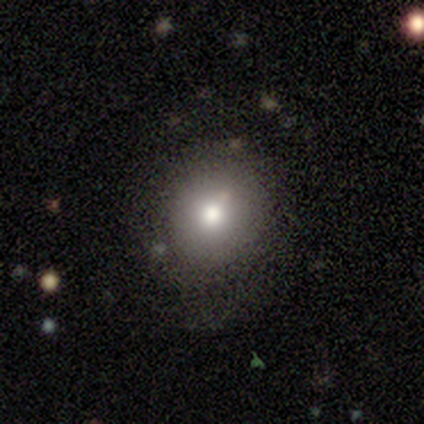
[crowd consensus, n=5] Q: Smooth or featured?
A: smooth (60%); runner-up: featured or disk (40%)
Q: How rounded?
A: round (67%); runner-up: in between (33%)
Q: Merging?
A: none (100%)